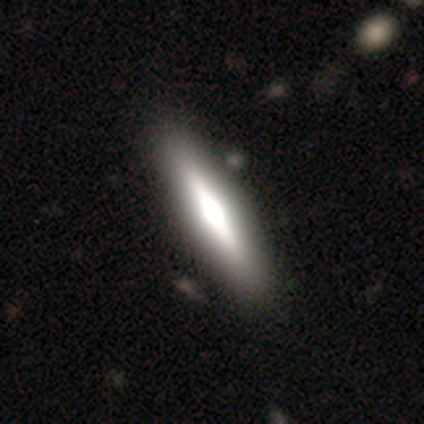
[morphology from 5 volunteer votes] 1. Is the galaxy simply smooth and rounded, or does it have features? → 60% featured or disk, 40% smooth, 0% star or artifact.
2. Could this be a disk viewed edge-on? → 100% yes, 0% no.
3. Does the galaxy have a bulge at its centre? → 100% boxy, 0% none, 0% rounded.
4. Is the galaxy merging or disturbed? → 80% none, 20% minor disturbance, 0% major disturbance, 0% merger.